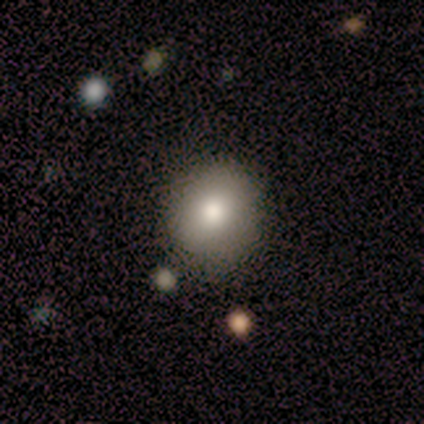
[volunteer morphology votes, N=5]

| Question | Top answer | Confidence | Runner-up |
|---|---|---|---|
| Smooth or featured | smooth | 60% | star or artifact (40%) |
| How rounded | round | 67% | in between (33%) |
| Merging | none | 100% | — |